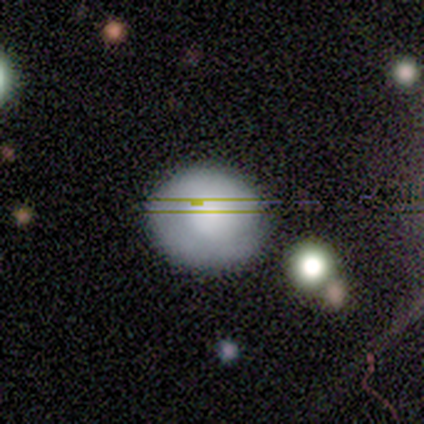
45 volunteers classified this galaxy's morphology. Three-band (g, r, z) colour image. It shows a smooth galaxy with no disk features (58%) that is round (77%). Merging: none (67%).